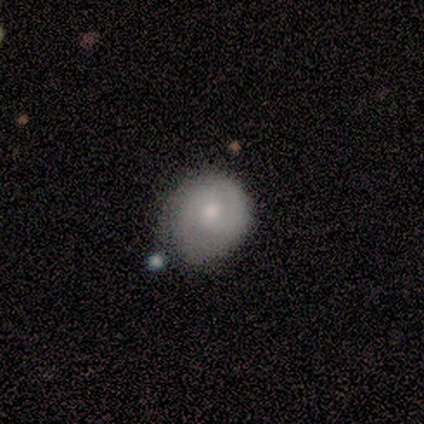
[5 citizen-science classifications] smooth_or_featured: smooth (p=0.60) [alt: featured or disk p=0.40]
how_rounded: round (p=0.67) [alt: in between p=0.33]
merging: none (p=0.60) [alt: minor disturbance p=0.20]